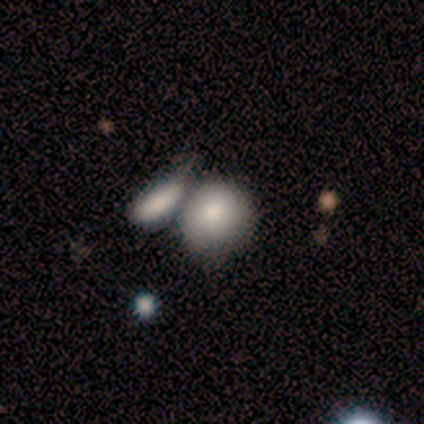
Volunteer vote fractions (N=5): A smooth galaxy with no disk features (100%) that is round (80%).

Vote fractions:
- Smooth or featured? smooth: 100% / featured or disk: 0% / star or artifact: 0%
- How rounded? round: 80% / in between: 20% / cigar-shaped: 0%
- Merging? merger: 60% / none: 40% / minor disturbance: 0% / major disturbance: 0%